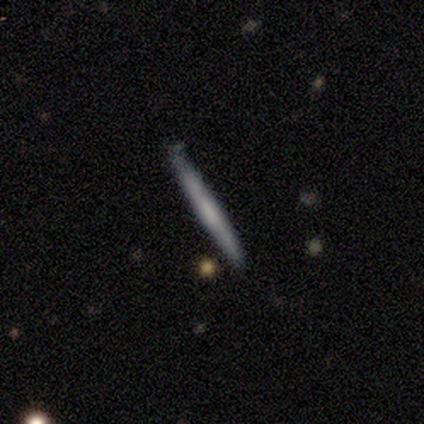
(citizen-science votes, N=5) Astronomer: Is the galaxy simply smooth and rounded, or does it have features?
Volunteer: featured or disk — 60% (runner-up: smooth, 40%).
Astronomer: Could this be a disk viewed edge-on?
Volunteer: yes — 100%.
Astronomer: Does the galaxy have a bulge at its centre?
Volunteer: none — 67%.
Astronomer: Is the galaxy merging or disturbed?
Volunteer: none — 100%.